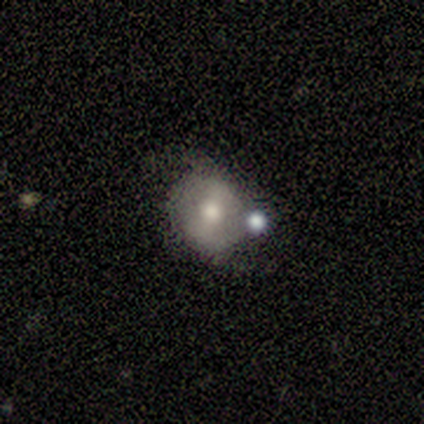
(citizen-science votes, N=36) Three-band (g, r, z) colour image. It shows a featured or disk galaxy (53%) with a strong bar (53%), no spiral arms (74%) and a moderate central bulge (74%). Merging: none (45%).